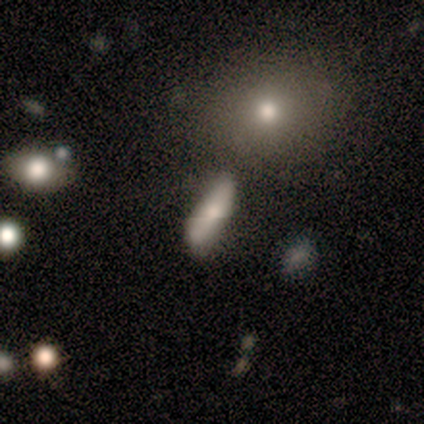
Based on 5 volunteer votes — A smooth galaxy with no disk features (80%) that is cigar-shaped (100%). Merging: minor disturbance (50%).